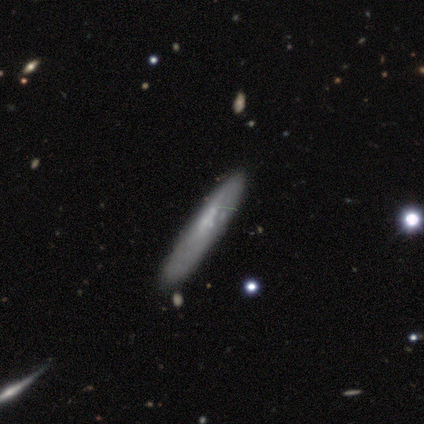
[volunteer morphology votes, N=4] Smooth or featured?
  - smooth: 75% *
  - featured or disk: 25%
  - star or artifact: 0%
How rounded?
  - cigar-shaped: 100% *
  - round: 0%
  - in between: 0%
Merging?
  - none: 100% *
  - minor disturbance: 0%
  - major disturbance: 0%
  - merger: 0%